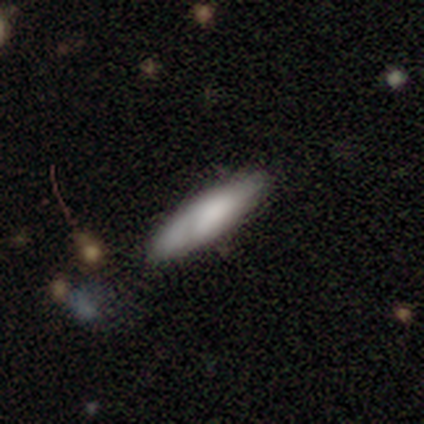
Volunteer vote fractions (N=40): Q: Smooth or featured?
A: smooth (68%); runner-up: featured or disk (30%)
Q: How rounded?
A: cigar-shaped (67%); runner-up: in between (33%)
Q: Merging?
A: none (74%); runner-up: minor disturbance (18%)